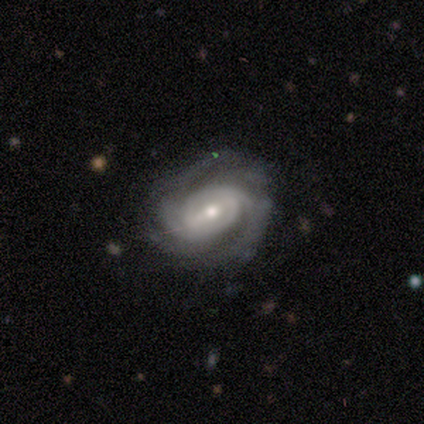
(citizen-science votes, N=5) Q: Smooth or featured?
A: featured or disk (100%)
Q: Edge-on disk?
A: no (100%)
Q: Bar?
A: weak (80%); runner-up: strong (20%)
Q: Spiral arms?
A: yes (100%)
Q: Spiral winding?
A: medium (60%); runner-up: tight (40%)
Q: Spiral arm count?
A: 2 (40%); runner-up: 4 (20%)
Q: Bulge size?
A: moderate (60%); runner-up: small (40%)
Q: Merging?
A: none (100%)